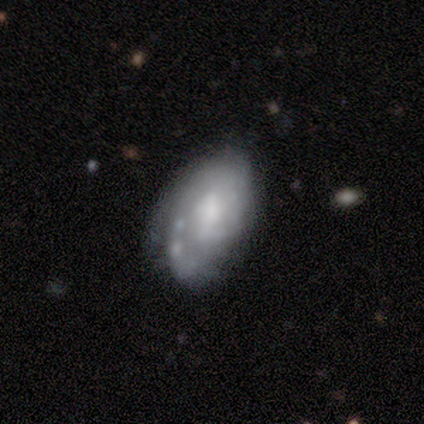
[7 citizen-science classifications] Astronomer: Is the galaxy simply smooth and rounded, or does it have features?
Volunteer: featured or disk — 86%.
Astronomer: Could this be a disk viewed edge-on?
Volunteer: no — 100%.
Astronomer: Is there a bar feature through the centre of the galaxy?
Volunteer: weak — 50% (runner-up: no, 33%).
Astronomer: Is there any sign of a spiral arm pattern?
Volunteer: yes — 83%.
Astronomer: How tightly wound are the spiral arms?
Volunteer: medium — 60%.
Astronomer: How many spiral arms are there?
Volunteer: can't tell — 60%.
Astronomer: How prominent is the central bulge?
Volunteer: moderate — 50% (runner-up: small, 33%).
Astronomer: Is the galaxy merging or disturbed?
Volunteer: none — 43%, tied with major disturbance at 43%.